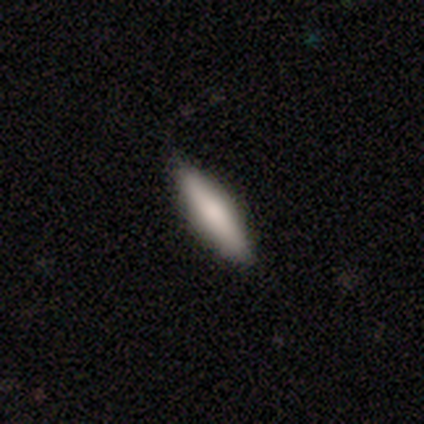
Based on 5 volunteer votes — Q: Smooth or featured?
A: smooth (80%); runner-up: featured or disk (20%)
Q: How rounded?
A: cigar-shaped (75%); runner-up: in between (25%)
Q: Merging?
A: none (100%)